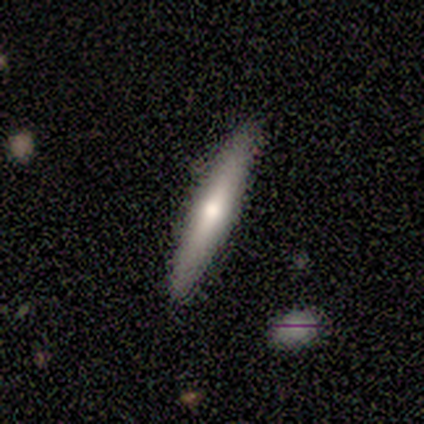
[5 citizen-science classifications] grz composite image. It shows a smooth galaxy with no disk features (80%) that is cigar-shaped (100%). Merging: none (100%).